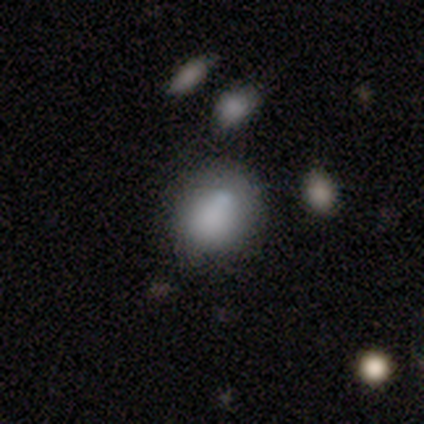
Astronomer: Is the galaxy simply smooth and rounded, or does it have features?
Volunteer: featured or disk — 50% (runner-up: smooth, 33%).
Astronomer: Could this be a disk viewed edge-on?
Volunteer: no — 100%.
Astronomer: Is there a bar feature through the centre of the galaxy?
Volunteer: no — 67%.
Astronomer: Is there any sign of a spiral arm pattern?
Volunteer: no — 67%.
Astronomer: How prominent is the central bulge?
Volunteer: dominant — 33%, tied with moderate and small at 33%.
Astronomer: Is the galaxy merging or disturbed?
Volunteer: minor disturbance — 60%.